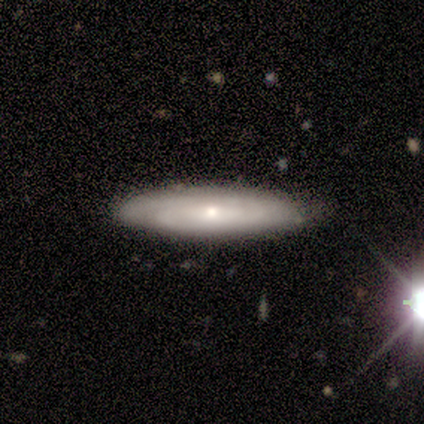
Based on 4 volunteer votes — This is likely a featured or disk galaxy (75%). It is clearly not viewed edge-on (100%). Bar: clearly weak (100%). Spiral arm pattern: likely yes (67%). Spiral arm count: possibly 3 (50%, tied with can't tell). Spiral winding: clearly tight (100%). Central bulge: likely small (67%). Merging: likely none (75%).